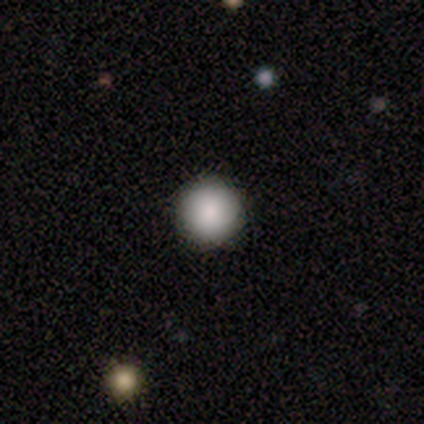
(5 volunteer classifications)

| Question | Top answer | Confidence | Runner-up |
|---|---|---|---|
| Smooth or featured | smooth | 80% | featured or disk (20%) |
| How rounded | round | 100% | — |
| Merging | none | 80% | minor disturbance (20%) |